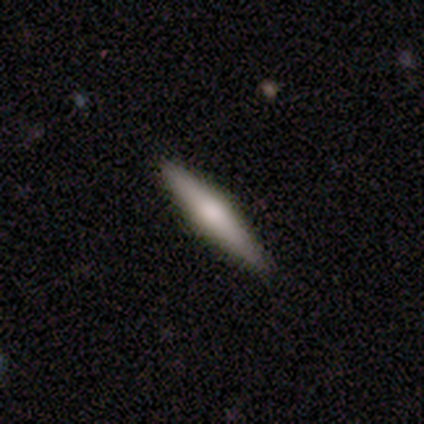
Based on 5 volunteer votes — Q: Smooth or featured?
A: featured or disk (80%); runner-up: smooth (20%)
Q: Edge-on disk?
A: yes (100%)
Q: Edge-on bulge?
A: rounded (100%)
Q: Merging?
A: none (80%); runner-up: minor disturbance (20%)